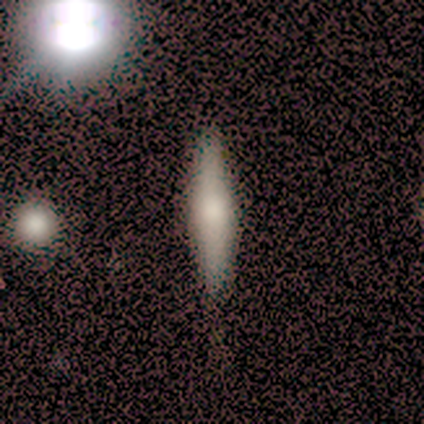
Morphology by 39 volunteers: A smooth galaxy with no disk features (51%) that is cigar-shaped (90%).

Vote fractions:
- Smooth or featured? smooth: 51% / featured or disk: 44% / star or artifact: 5%
- How rounded? cigar-shaped: 90% / in between: 10% / round: 0%
- Merging? none: 62% / minor disturbance: 0% / major disturbance: 0% / merger: 0%